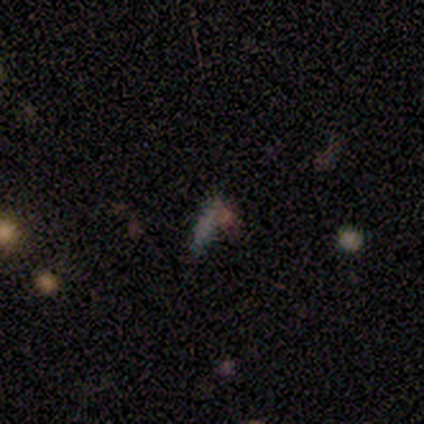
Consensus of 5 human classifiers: Q: Smooth or featured?
A: smooth (60%); runner-up: featured or disk (20%)
Q: How rounded?
A: in between (100%)
Q: Merging?
A: major disturbance (50%); tied with: merger (50%)